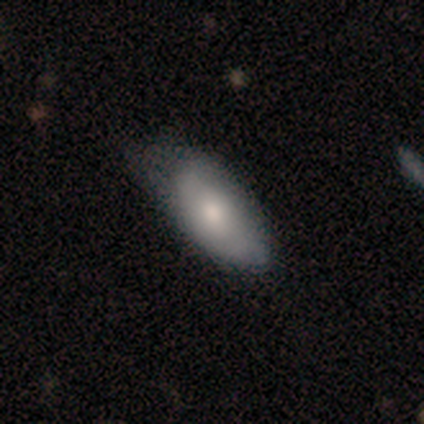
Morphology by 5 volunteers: type=smooth (80%); roundness=in between (100%); merging=none (75%).